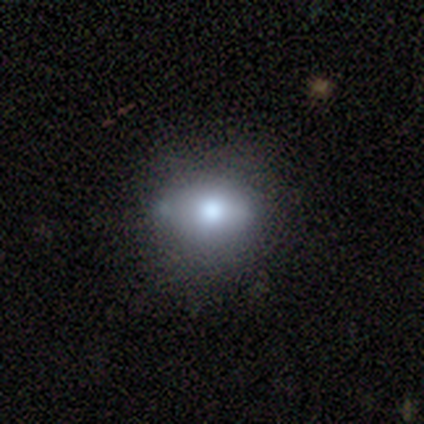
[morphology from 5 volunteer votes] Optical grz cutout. It shows a star or artifact, not a galaxy (60%).